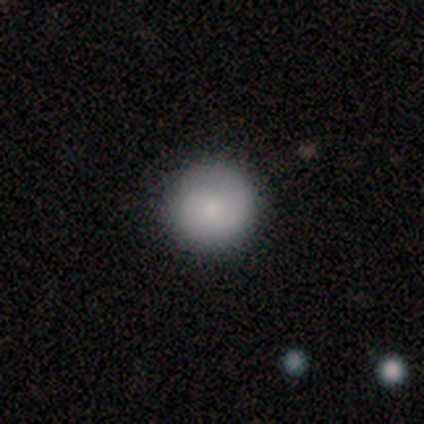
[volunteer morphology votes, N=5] Q: Smooth or featured?
A: smooth (80%); runner-up: featured or disk (20%)
Q: How rounded?
A: round (100%)
Q: Merging?
A: none (100%)